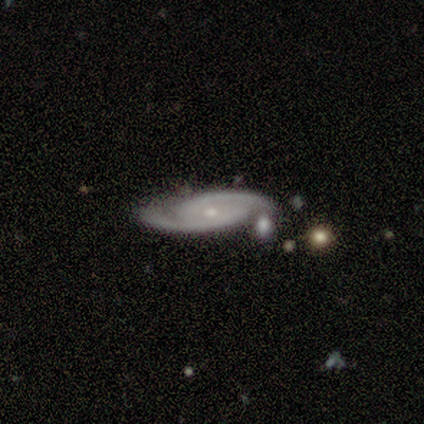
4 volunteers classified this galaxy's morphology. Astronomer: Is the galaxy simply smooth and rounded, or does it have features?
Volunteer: featured or disk — 100%.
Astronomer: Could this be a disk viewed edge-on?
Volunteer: no — 75%.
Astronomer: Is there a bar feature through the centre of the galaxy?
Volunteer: no — 67%.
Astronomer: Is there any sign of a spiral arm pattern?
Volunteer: yes — 100%.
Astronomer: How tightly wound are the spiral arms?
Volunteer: tight — 100%.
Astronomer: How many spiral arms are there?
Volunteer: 2 — 100%.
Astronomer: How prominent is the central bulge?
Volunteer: small — 100%.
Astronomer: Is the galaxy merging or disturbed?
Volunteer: none — 75%.